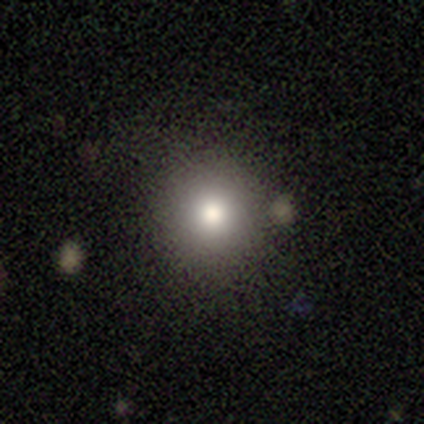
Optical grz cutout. It shows a smooth galaxy with no disk features (100%) that is round (100%). Merging: none (80%).